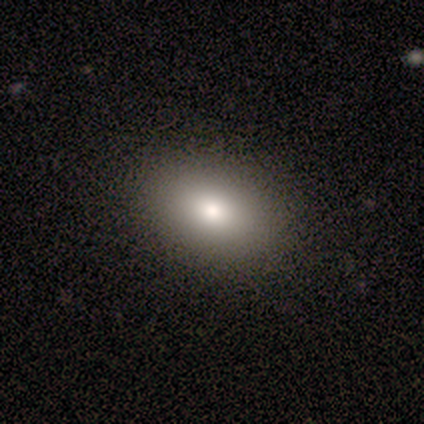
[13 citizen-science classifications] Q: Smooth or featured?
A: smooth (85%); runner-up: featured or disk (15%)
Q: How rounded?
A: in between (82%); runner-up: round (18%)
Q: Merging?
A: none (100%)